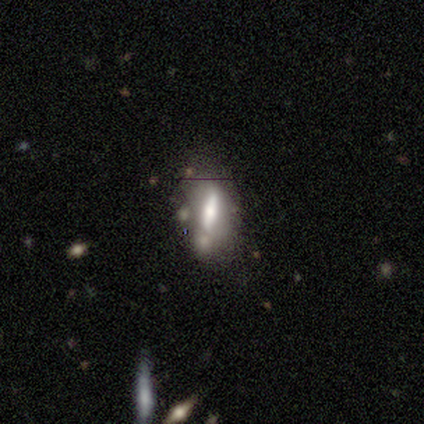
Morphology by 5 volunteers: Smooth or featured?
  - smooth: 80% *
  - star or artifact: 20%
  - featured or disk: 0%
How rounded?
  - in between: 75% *
  - cigar-shaped: 25%
  - round: 0%
Merging?
  - major disturbance: 50% *
  - none: 25%
  - merger: 25%
  - minor disturbance: 0%